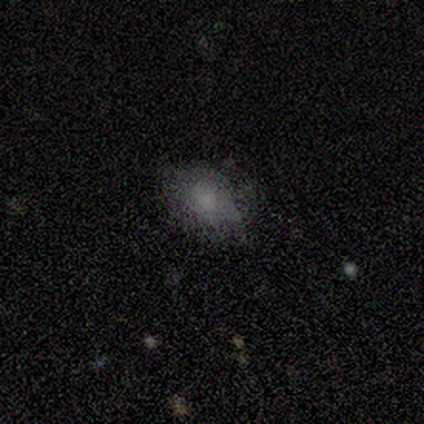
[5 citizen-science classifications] Smooth or featured? 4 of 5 (80%) said smooth. How rounded? 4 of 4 (100%) said in between. Merging? 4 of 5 (80%) said none.